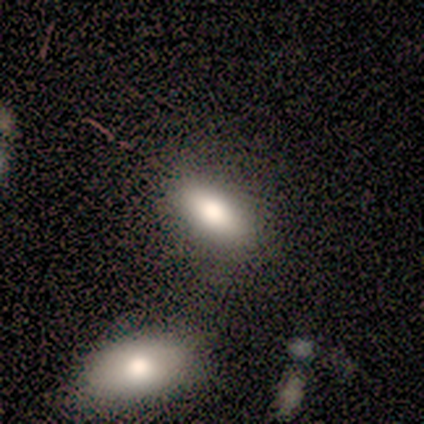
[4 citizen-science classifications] Overall: smooth (100%). How rounded: in between (100%). Merging: none (50%; minor disturbance 25%).